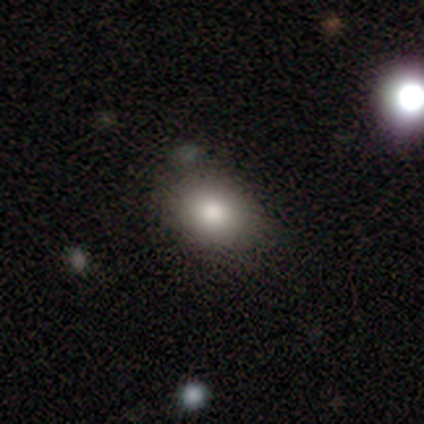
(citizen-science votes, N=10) Smooth or featured? smooth (70%)
How rounded? in between (57%)
Merging? none (89%)